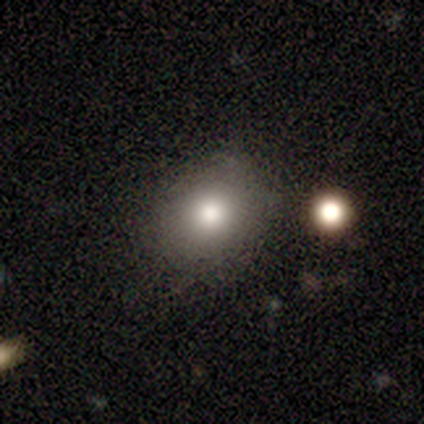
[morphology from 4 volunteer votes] smooth_or_featured: smooth (p=1.00)
how_rounded: round (p=1.00)
merging: none (p=1.00)